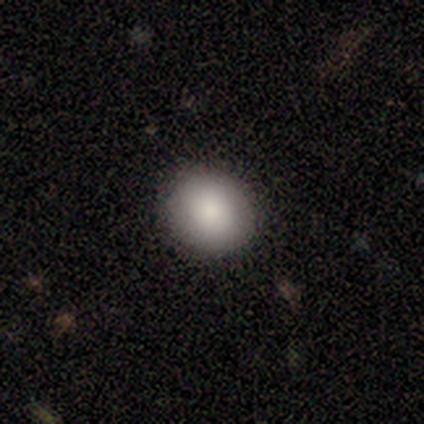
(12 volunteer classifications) smooth-or-featured: smooth: 83% | featured or disk: 8% | star or artifact: 8%
  how-rounded: round: 70% | in between: 30% | cigar-shaped: 0%
  merging: none: 100% | minor disturbance: 0% | major disturbance: 0% | merger: 0%